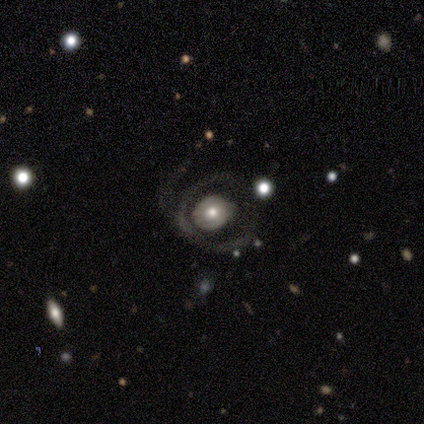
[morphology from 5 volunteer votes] Overall: featured or disk (100%). Edge-on disk: no (100%). Bar: no (80%). Spiral arms: yes (60%; no 40%). Spiral arm count: 1 (67%; 3 33%). Spiral winding: medium (67%; tight 33%). Bulge size: moderate (60%; small 40%). Merging: none (40%, tied with major disturbance).